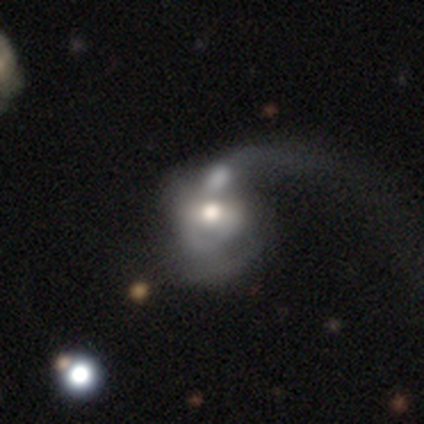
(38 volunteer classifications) A featured or disk galaxy (71%) with no bar (44%), 2 (38%, tied with can't tell) loose (56%) spiral arms (59%) and a moderate central bulge (78%). Merging: merger (35%).